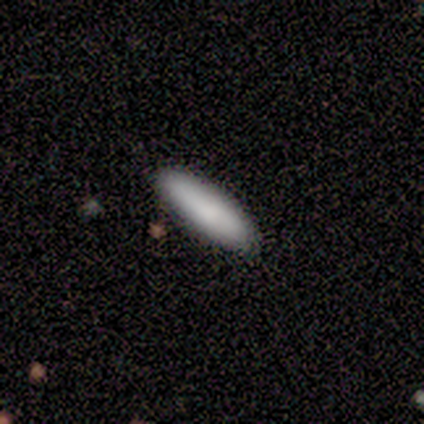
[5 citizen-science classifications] smooth_or_featured: smooth (p=0.80) [alt: star or artifact p=0.20]
how_rounded: cigar-shaped (p=1.00)
merging: none (p=1.00)